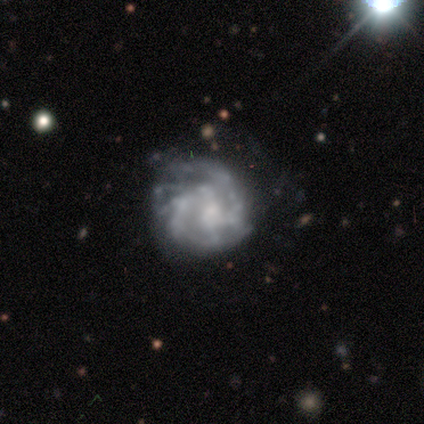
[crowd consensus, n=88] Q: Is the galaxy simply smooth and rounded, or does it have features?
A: featured or disk — 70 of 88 (80%).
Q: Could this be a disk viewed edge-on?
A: no — 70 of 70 (100%).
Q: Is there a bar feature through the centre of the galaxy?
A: no — 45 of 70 (64%).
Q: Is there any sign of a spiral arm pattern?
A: yes — 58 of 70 (83%).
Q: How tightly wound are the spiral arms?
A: tight — 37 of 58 (64%).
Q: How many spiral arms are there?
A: can't tell — 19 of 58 (33%).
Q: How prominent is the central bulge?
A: moderate — 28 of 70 (40%).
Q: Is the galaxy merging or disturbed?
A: none — 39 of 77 (51%).